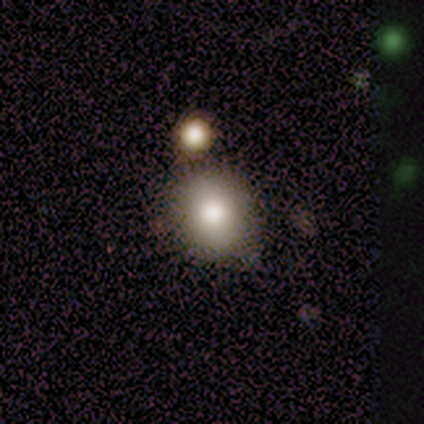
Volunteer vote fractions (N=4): A smooth galaxy with no disk features (75%) that is round (67%). Merging: none (100%).